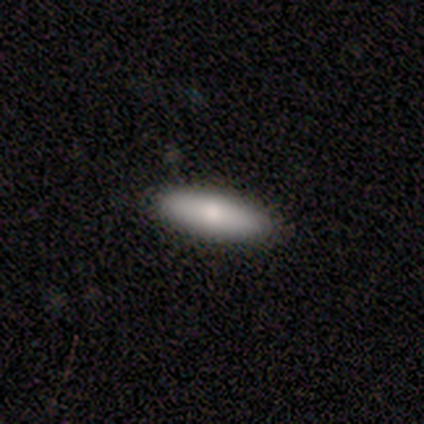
smooth 67%, featured or disk 33%, star or artifact 0%. Down the decision tree: how rounded — in between (50%, tied with cigar-shaped); merging — none (100%).